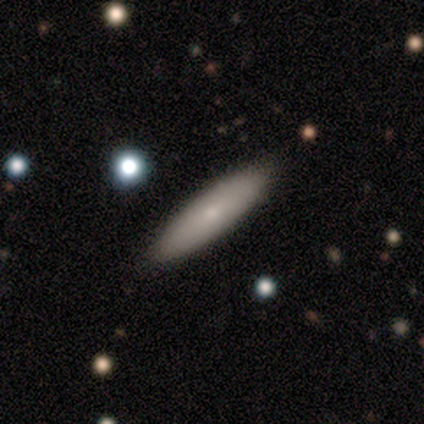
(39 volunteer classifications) smooth_or_featured: smooth (p=0.67) [alt: featured or disk p=0.28]
how_rounded: cigar-shaped (p=0.69) [alt: in between p=0.31]
merging: none (p=0.73) [alt: minor disturbance p=0.05]